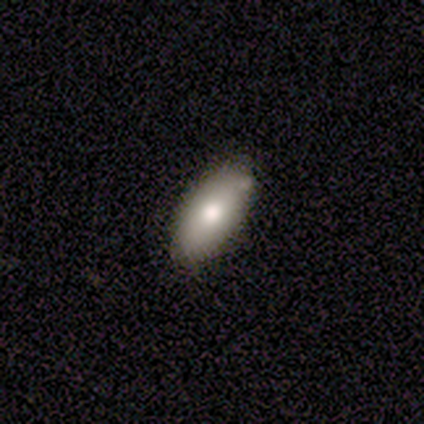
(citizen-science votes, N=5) Q: Smooth or featured?
A: smooth (80%); runner-up: featured or disk (20%)
Q: How rounded?
A: in between (75%); runner-up: cigar-shaped (25%)
Q: Merging?
A: none (80%); runner-up: minor disturbance (20%)